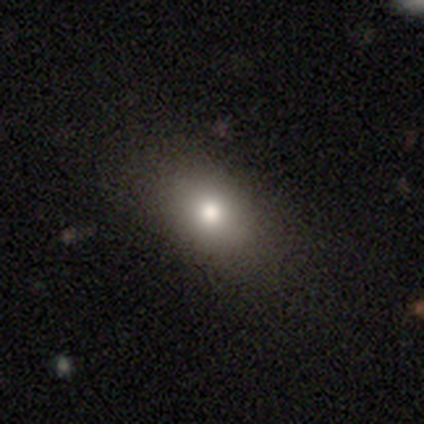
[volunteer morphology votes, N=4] Overall: smooth (75%). How rounded: round (67%; in between 33%). Merging: none (100%).